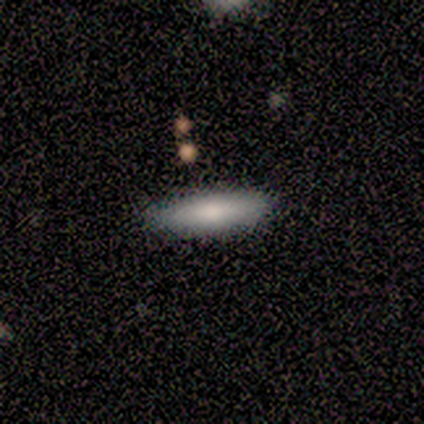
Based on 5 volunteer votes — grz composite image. It shows a smooth galaxy with no disk features (100%) that is cigar-shaped (60%). Merging: none (100%).